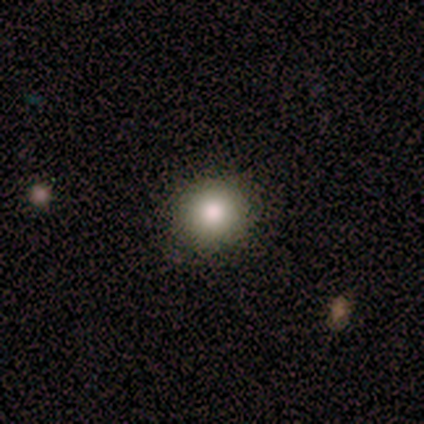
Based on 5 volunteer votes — A smooth galaxy with no disk features (100%) that is round (100%). Merging: none (100%).